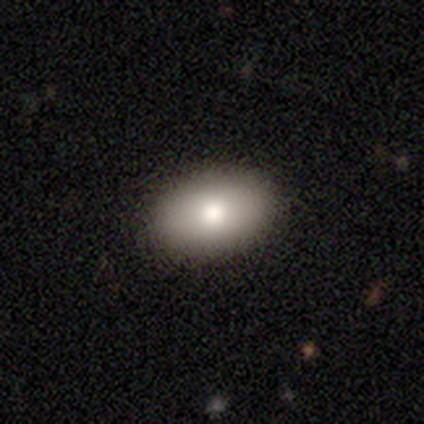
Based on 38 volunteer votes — Smooth or featured: smooth — 68% (star or artifact — 24%)
How rounded: in between — 81% (round — 19%)
Merging: none — 100%